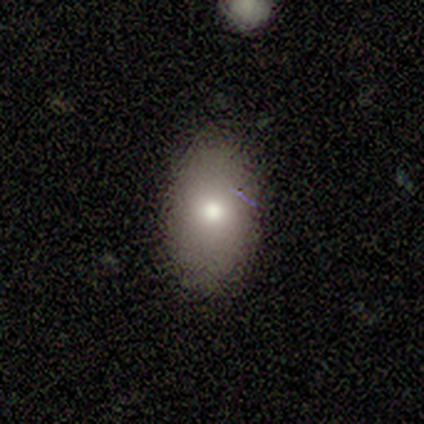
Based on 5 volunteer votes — Morphology: type=smooth (60%); roundness=in between (100%); merging=none (75%).